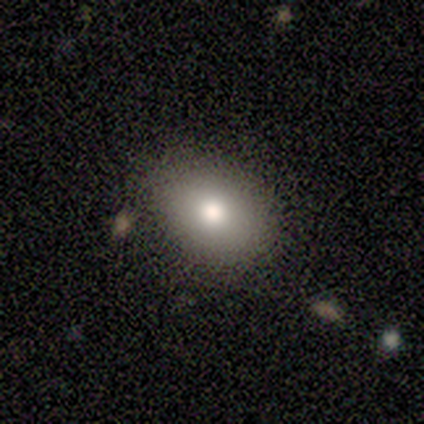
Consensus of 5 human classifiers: Morphology: type=smooth (100%); roundness=in between (80%); merging=none (100%).